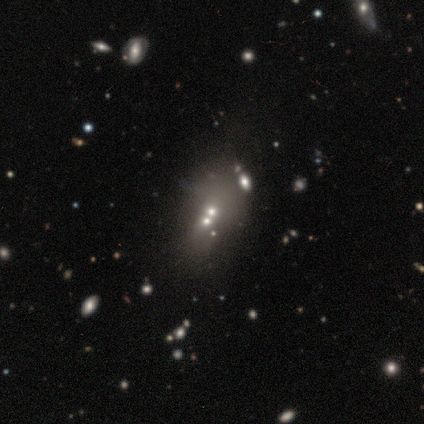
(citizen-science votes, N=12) Smooth or featured? 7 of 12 (58%) said featured or disk. Edge-on disk? 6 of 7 (86%) said no. Bar? 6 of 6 (100%) said no. Spiral arms? 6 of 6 (100%) said no. Bulge size? 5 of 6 (83%) said small. Merging? 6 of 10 (60%) said merger.